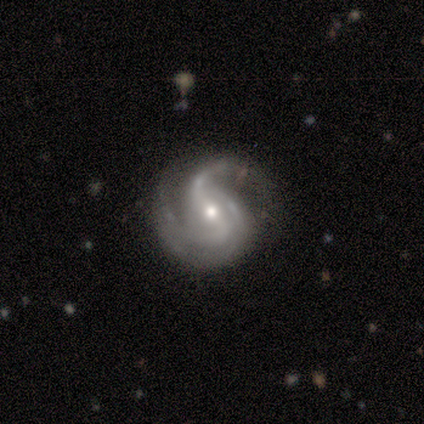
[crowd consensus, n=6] This appears to be a featured or disk galaxy (100%) with a strong bar (50%, tied with weak), 2 (50%) medium (67%) spiral arms (100%) and a moderate central bulge (83%). Merging: none (50%).